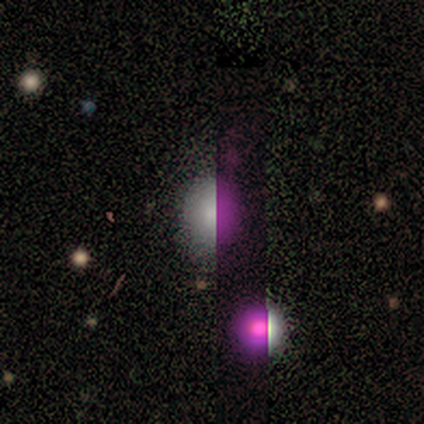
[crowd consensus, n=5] Smooth or featured? smooth (80%)
How rounded? round (50%, tied with in between)
Merging? none (50%, tied with minor disturbance)